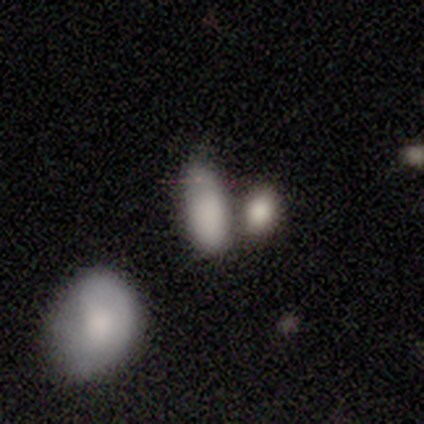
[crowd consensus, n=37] smooth_or_featured: smooth (p=0.86) [alt: star or artifact p=0.08]
how_rounded: in between (p=0.78) [alt: cigar-shaped p=0.12]
merging: merger (p=0.35) [alt: minor disturbance p=0.26]